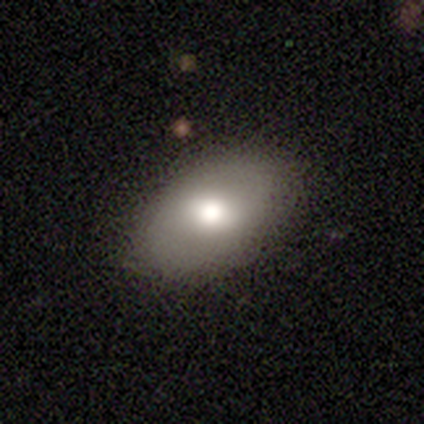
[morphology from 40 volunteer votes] A smooth galaxy with no disk features (75%) that is in between round and cigar-shaped (90%). Merging: none (97%).